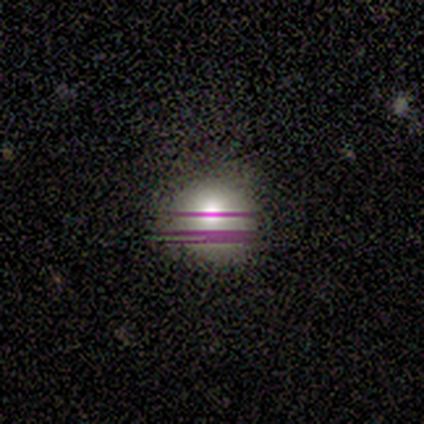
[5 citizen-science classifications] A star or artifact, not a galaxy (60%).

Vote fractions:
- Smooth or featured? star or artifact: 60% / smooth: 40% / featured or disk: 0%